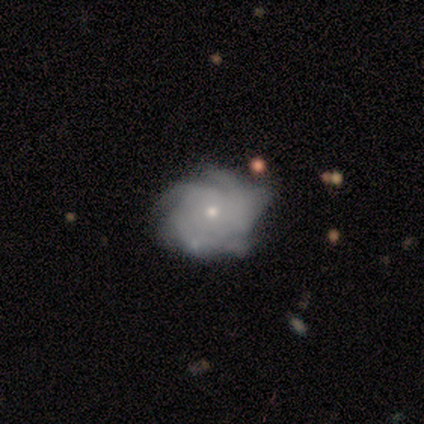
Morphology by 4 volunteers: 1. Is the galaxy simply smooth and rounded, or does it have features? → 75% featured or disk, 25% smooth, 0% star or artifact.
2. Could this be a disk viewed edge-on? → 100% no, 0% yes.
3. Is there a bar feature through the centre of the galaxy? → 100% no, 0% strong, 0% weak.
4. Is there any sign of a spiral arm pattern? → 100% yes, 0% no.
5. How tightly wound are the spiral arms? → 33% tight (tied), 33% medium (tied), 33% loose (tied).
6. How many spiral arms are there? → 67% can't tell, 33% more than 4, 0% 1, 0% 2, 0% 3, 0% 4.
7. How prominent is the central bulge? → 33% dominant (tied), 33% moderate (tied), 33% small (tied), 0% large, 0% none.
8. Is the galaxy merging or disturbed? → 75% none, 25% minor disturbance, 0% major disturbance, 0% merger.